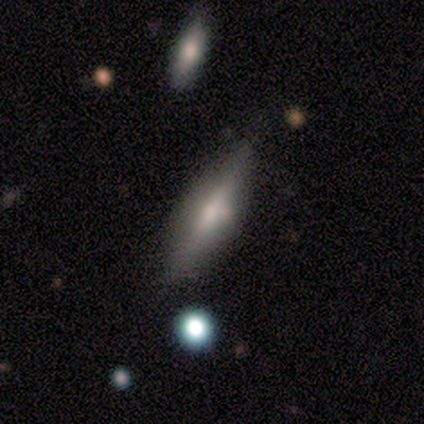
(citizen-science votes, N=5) smooth-or-featured: smooth: 60% | featured or disk: 20% | star or artifact: 20%
  how-rounded: cigar-shaped: 100% | round: 0% | in between: 0%
  merging: none: 100% | minor disturbance: 0% | major disturbance: 0% | merger: 0%